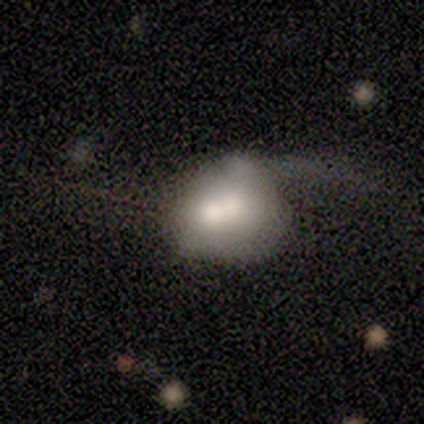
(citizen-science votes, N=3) Smooth or featured?
  - featured or disk: 67% *
  - smooth: 33%
  - star or artifact: 0%
Edge-on disk?
  - no: 100% *
  - yes: 0%
Bar?
  - strong: 50% * (tied)
  - no: 50% * (tied)
  - weak: 0%
Spiral arms?
  - yes: 50% * (tied)
  - no: 50% * (tied)
Spiral winding?
  - loose: 100% *
  - tight: 0%
  - medium: 0%
Spiral arm count?
  - 2: 100% *
  - 1: 0%
  - 3: 0%
  - 4: 0%
  - more than 4: 0%
  - can't tell: 0%
Bulge size?
  - dominant: 50% * (tied)
  - large: 50% * (tied)
  - moderate: 0%
  - small: 0%
  - none: 0%
Merging?
  - merger: 67% *
  - minor disturbance: 33%
  - none: 0%
  - major disturbance: 0%